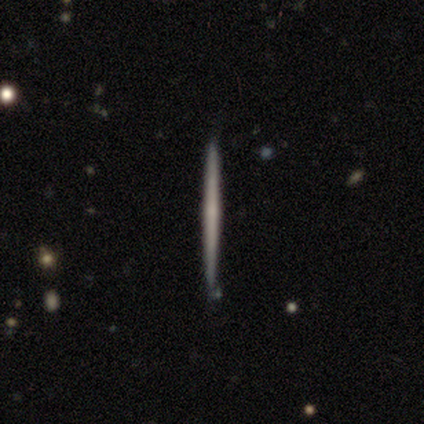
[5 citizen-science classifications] Q: Smooth or featured?
A: smooth (60%); runner-up: featured or disk (40%)
Q: How rounded?
A: cigar-shaped (100%)
Q: Merging?
A: none (100%)